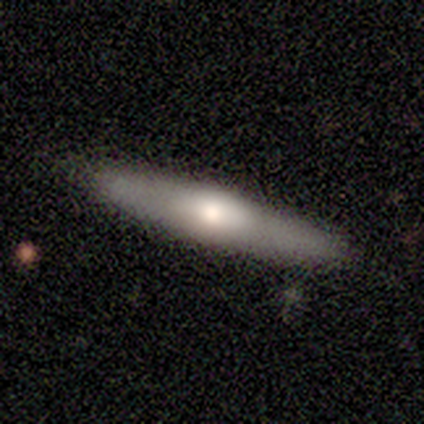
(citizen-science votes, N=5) featured or disk 60%, smooth 40%, star or artifact 0%. Down the decision tree: edge-on disk — yes (100%); edge-on bulge — rounded (100%); merging — none (80%).